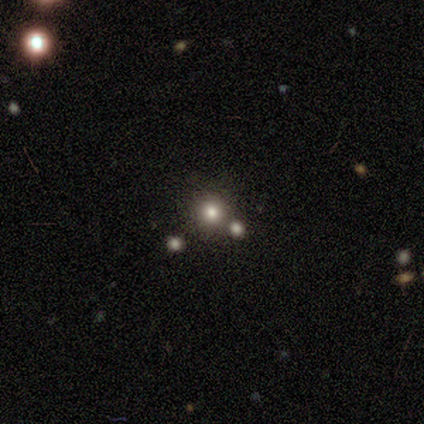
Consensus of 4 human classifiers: Morphology: type=smooth (75%); roundness=round (100%); merging=none (100%).